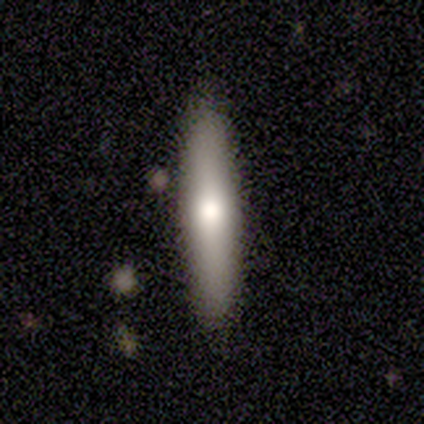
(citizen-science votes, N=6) Volunteers were most divided on "smooth or featured": smooth: 83%, featured or disk: 17%, star or artifact: 0%. More confident: how rounded — cigar-shaped (100%); merging — none (100%).